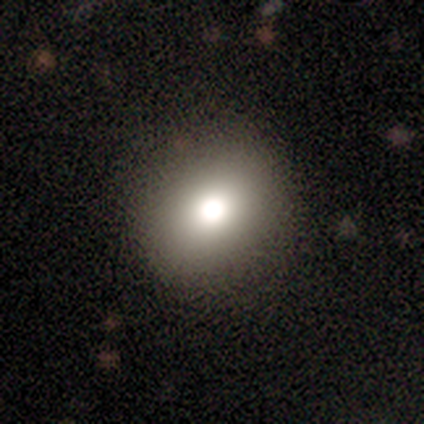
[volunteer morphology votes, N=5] Q: Smooth or featured?
A: smooth (80%); runner-up: featured or disk (20%)
Q: How rounded?
A: round (100%)
Q: Merging?
A: none (80%); runner-up: minor disturbance (20%)